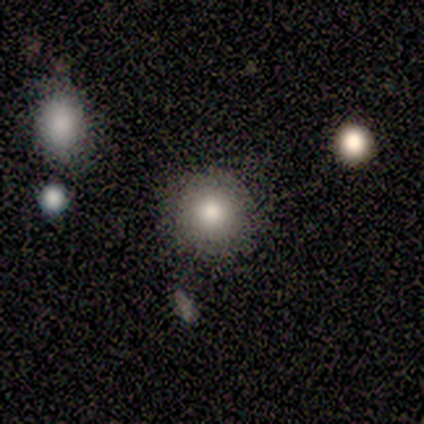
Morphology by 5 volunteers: This appears to be a smooth galaxy with no disk features (80%) that is round (75%). Merging: none (60%).